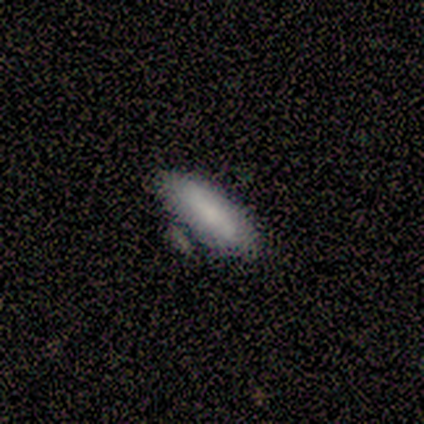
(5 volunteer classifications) Overall: smooth (100%). How rounded: cigar-shaped (60%; in between 40%). Merging: none (80%).